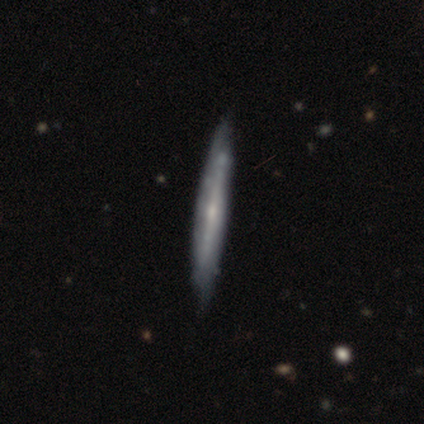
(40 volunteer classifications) Smooth or featured? 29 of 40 (72%) said featured or disk. Edge-on disk? 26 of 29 (90%) said yes. Edge-on bulge? 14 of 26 (54%) said rounded. Merging? 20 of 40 (50%) said none.